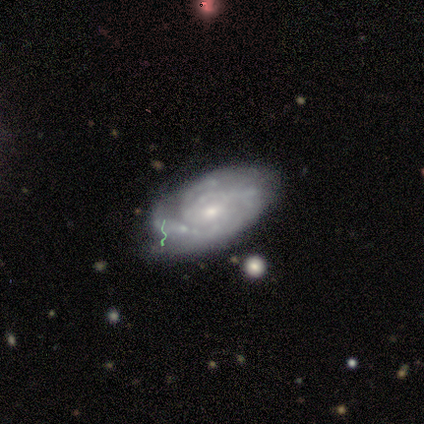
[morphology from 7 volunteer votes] featured or disk 86%, smooth 14%, star or artifact 0%. Down the decision tree: edge-on disk — no (100%); bar — no (83%); spiral arms — yes (100%); spiral arm count — 3 (50%); spiral winding — tight (83%); bulge size — moderate (50%, tied with small); merging — none (57%).